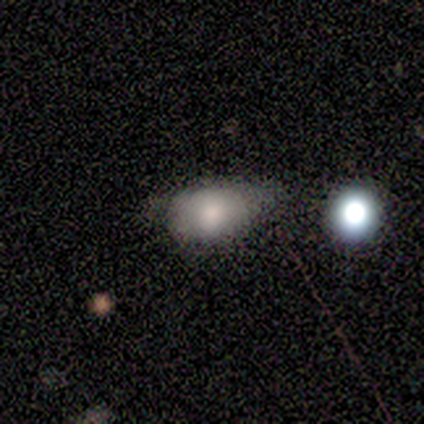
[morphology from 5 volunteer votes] Volunteers were most divided on "smooth or featured": smooth: 60%, featured or disk: 20%, star or artifact: 20%. More confident: how rounded — in between (100%); merging — minor disturbance (75%).